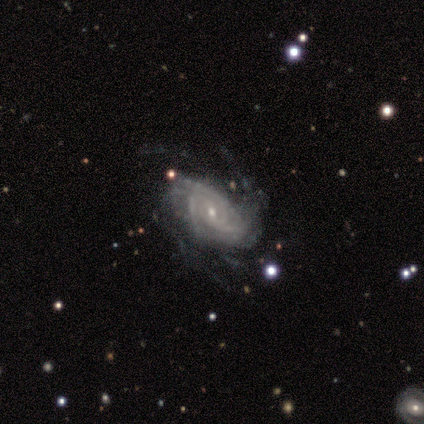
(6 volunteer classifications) Morphology: type=featured or disk (83%); edge-on=no (100%); bar=no (100%); spiral arms=yes (100%); winding=tight (60%); arm count=4 (40%, tied with more than 4); bulge=small (80%); merging=none (50%).